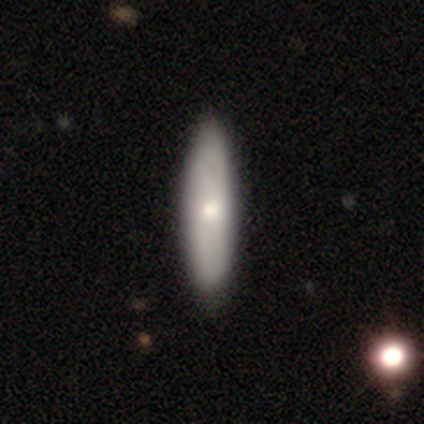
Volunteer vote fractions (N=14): Overall: featured or disk (64%; smooth 36%). Edge-on disk: yes (56%; no 44%). Edge-on bulge: rounded (60%; none 40%). Merging: none (86%).